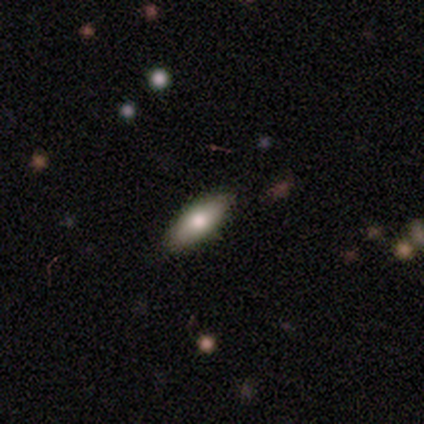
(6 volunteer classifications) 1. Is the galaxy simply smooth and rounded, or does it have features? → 50% smooth (tied), 50% featured or disk (tied), 0% star or artifact.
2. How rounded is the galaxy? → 67% in between, 33% cigar-shaped, 0% round.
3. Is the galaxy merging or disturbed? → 83% none, 17% minor disturbance, 0% major disturbance, 0% merger.